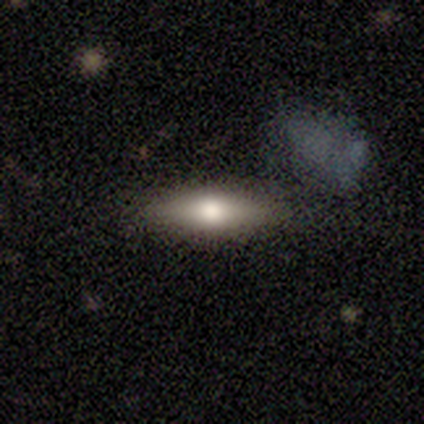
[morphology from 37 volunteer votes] Overall: smooth (59%; featured or disk 38%). How rounded: cigar-shaped (68%). Merging: none (75%).